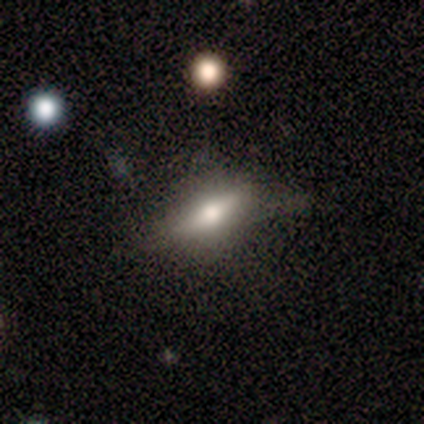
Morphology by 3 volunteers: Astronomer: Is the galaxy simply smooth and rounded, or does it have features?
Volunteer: smooth — 33%, tied with featured or disk and star or artifact at 33%.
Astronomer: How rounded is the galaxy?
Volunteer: in between — 100%.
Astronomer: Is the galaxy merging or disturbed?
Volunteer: none — 50%, tied with minor disturbance at 50%.